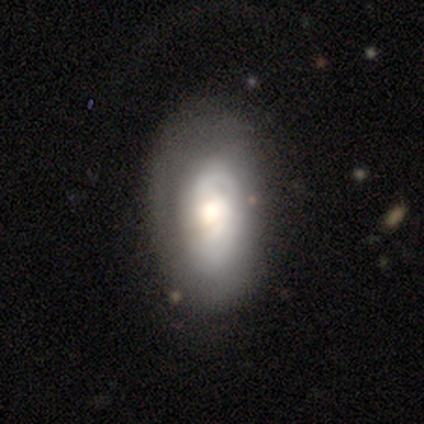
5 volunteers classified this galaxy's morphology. Overall: smooth (60%; featured or disk 40%). How rounded: in between (67%; round 33%). Merging: none (60%; minor disturbance 40%).